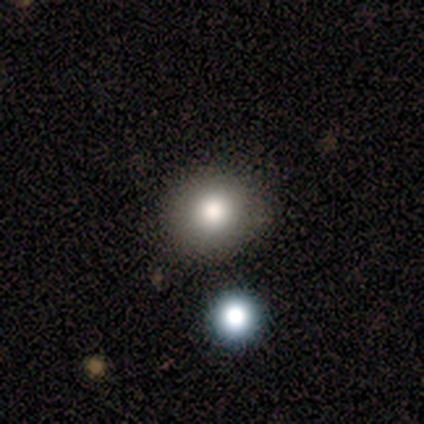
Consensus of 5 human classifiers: Q: Smooth or featured?
A: smooth (80%); runner-up: featured or disk (20%)
Q: How rounded?
A: round (75%); runner-up: in between (25%)
Q: Merging?
A: none (100%)